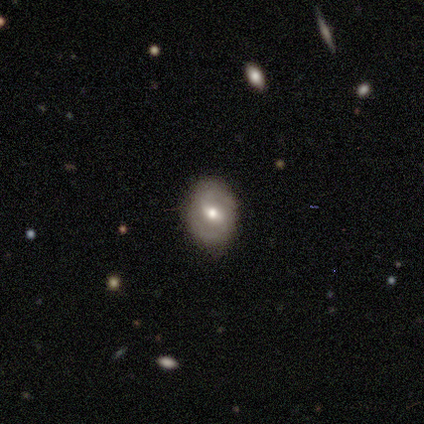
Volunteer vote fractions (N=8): Overall: featured or disk (75%). Edge-on disk: no (100%). Bar: weak (67%). Spiral arms: yes (83%). Spiral arm count: 2 (100%). Spiral winding: medium (40%, tied with loose). Bulge size: moderate (100%). Merging: none (100%).